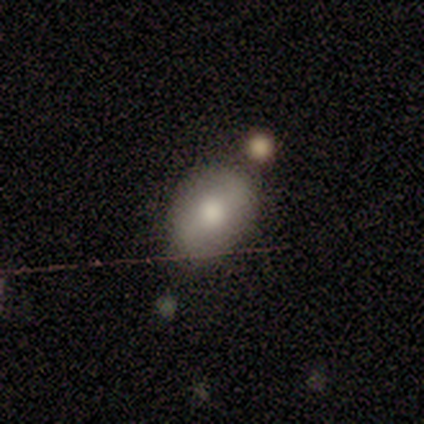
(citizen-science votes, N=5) Q: Smooth or featured?
A: smooth (80%); runner-up: featured or disk (20%)
Q: How rounded?
A: in between (100%)
Q: Merging?
A: minor disturbance (60%); runner-up: none (40%)